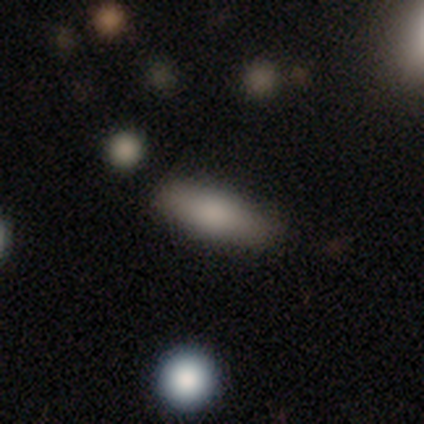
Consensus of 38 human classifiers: Q: Smooth or featured?
A: smooth (71%); runner-up: featured or disk (16%)
Q: How rounded?
A: in between (81%); runner-up: cigar-shaped (19%)
Q: Merging?
A: none (85%); runner-up: minor disturbance (9%)